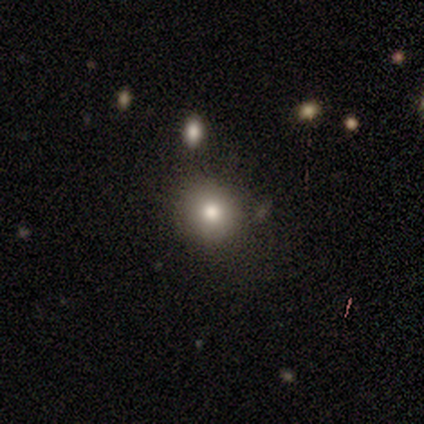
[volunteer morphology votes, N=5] A smooth galaxy with no disk features (80%) that is round (100%). Merging: none (100%).